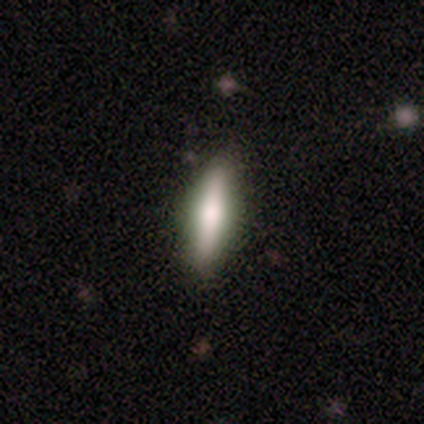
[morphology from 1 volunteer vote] smooth-or-featured: featured or disk: 100% | smooth: 0% | star or artifact: 0%
  disk-edge-on: yes: 100% | no: 0%
    edge-on-bulge: rounded: 100% | boxy: 0% | none: 0%
  merging: none: 100% | minor disturbance: 0% | major disturbance: 0% | merger: 0%